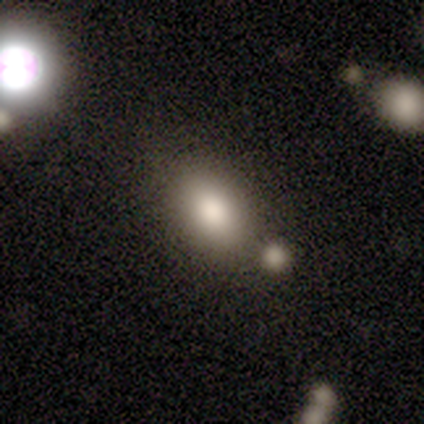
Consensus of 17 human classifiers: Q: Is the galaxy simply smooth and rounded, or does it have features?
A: smooth — 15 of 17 (88%).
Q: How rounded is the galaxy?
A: in between — 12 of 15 (80%).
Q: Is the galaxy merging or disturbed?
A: none — 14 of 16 (88%).